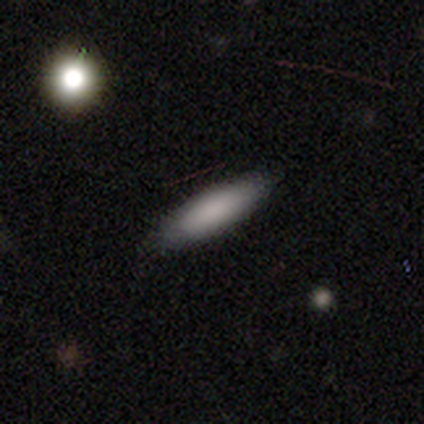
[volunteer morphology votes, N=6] A smooth galaxy with no disk features (83%) that is cigar-shaped (60%). Merging: none (100%).